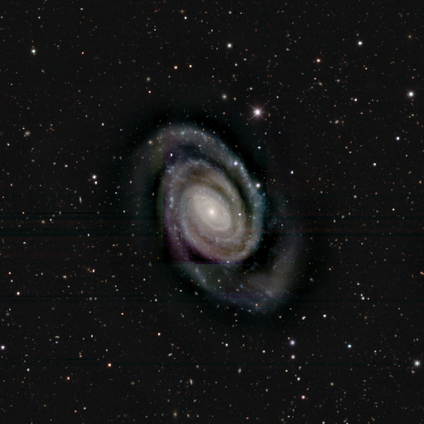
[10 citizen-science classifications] Morphology: type=featured or disk (100%); edge-on=no (100%); bar=no (70%); spiral arms=yes (100%); winding=tight (80%); arm count=2 (90%); bulge=small (80%); merging=none (70%).